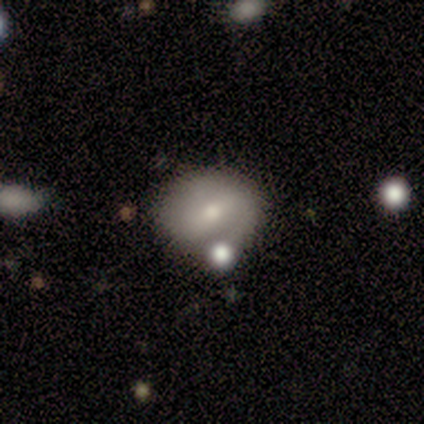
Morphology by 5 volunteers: Smooth or featured?
  - smooth: 60% *
  - featured or disk: 40%
  - star or artifact: 0%
How rounded?
  - round: 67% *
  - in between: 33%
  - cigar-shaped: 0%
Merging?
  - minor disturbance: 40% * (tied)
  - merger: 40% * (tied)
  - none: 20%
  - major disturbance: 0%